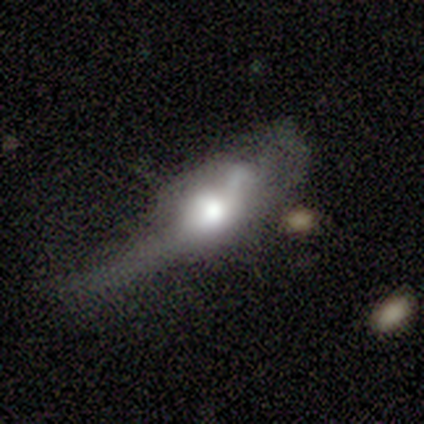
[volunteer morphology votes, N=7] smooth 57%, featured or disk 29%, star or artifact 14%. Down the decision tree: how rounded — in between (50%); merging — major disturbance (83%).